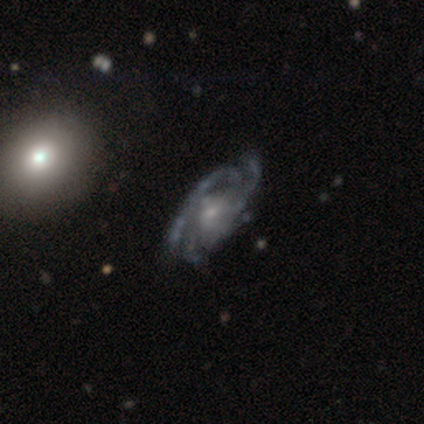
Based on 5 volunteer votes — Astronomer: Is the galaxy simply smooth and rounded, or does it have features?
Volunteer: featured or disk — 100%.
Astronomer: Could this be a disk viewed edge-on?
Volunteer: no — 100%.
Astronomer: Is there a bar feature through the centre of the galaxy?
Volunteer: no — 80%.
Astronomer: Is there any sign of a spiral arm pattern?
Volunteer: yes — 100%.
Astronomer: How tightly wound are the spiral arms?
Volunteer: medium — 60%.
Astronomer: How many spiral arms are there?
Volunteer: can't tell — 60% (runner-up: 3, 40%).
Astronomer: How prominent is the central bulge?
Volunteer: small — 60%.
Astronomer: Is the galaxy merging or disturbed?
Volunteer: none — 60%.